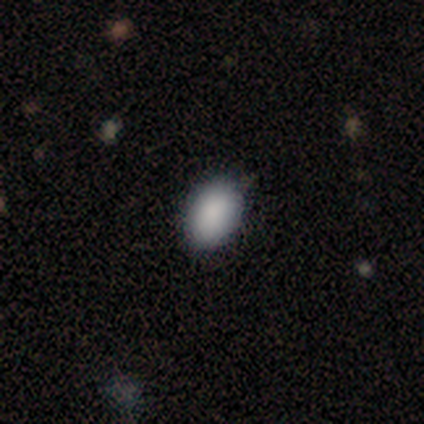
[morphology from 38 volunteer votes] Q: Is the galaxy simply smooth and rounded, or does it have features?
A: smooth — 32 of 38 (84%).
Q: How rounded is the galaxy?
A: in between — 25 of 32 (78%).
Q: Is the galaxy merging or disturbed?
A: none — 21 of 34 (62%).